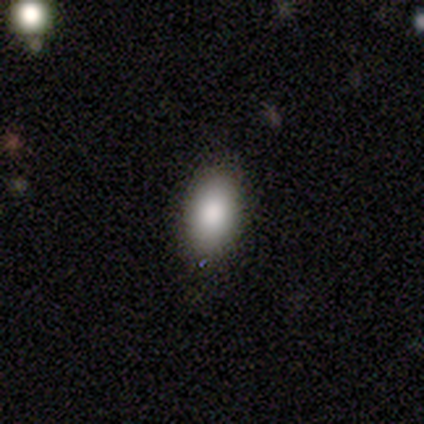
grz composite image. It shows a smooth galaxy with no disk features (80%) that is in between round and cigar-shaped (100%). Merging: none (80%).